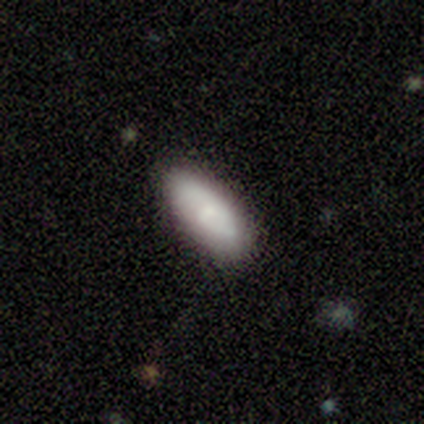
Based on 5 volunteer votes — smooth 100%, featured or disk 0%, star or artifact 0%. Down the decision tree: how rounded — in between (80%); merging — none (80%).